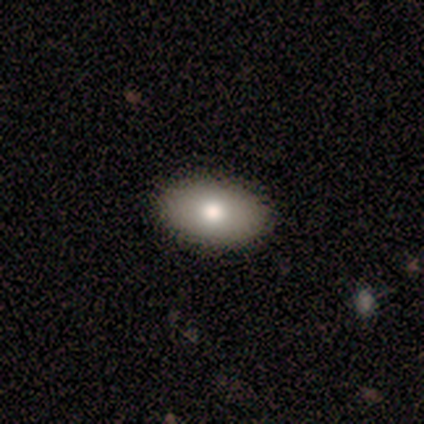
A smooth galaxy with no disk features (100%) that is in between round and cigar-shaped (80%).

Vote fractions:
- Smooth or featured? smooth: 100% / featured or disk: 0% / star or artifact: 0%
- How rounded? in between: 80% / round: 20% / cigar-shaped: 0%
- Merging? none: 100% / minor disturbance: 0% / major disturbance: 0% / merger: 0%